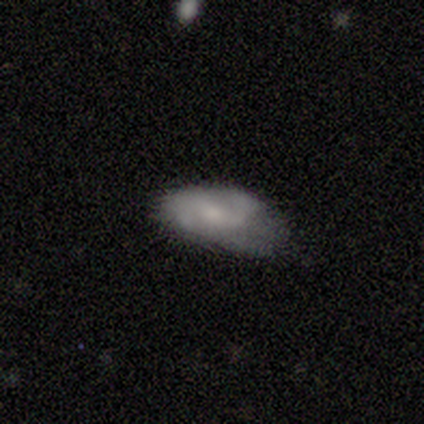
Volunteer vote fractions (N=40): This appears to be a smooth galaxy with no disk features (57%) that is in between round and cigar-shaped (91%). Merging: none (53%).